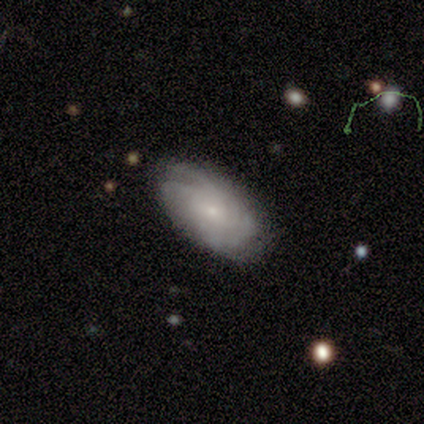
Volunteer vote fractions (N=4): Volunteers were most divided on "smooth or featured" (2-way tie): smooth: 50%, featured or disk: 50%, star or artifact: 0%. More confident: how rounded — in between (100%); merging — none (75%).